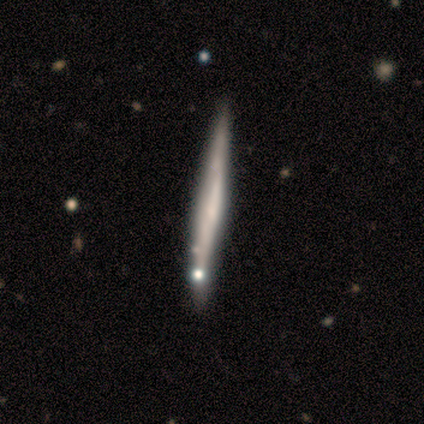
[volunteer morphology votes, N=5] A featured or disk galaxy (60%) viewed edge-on (100%) with no central bulge (67%).

Vote fractions:
- Smooth or featured? featured or disk: 60% / smooth: 40% / star or artifact: 0%
- Edge-on disk? yes: 100% / no: 0%
- Edge-on bulge? none: 67% / boxy: 33% / rounded: 0%
- Merging? none: 100% / minor disturbance: 0% / major disturbance: 0% / merger: 0%